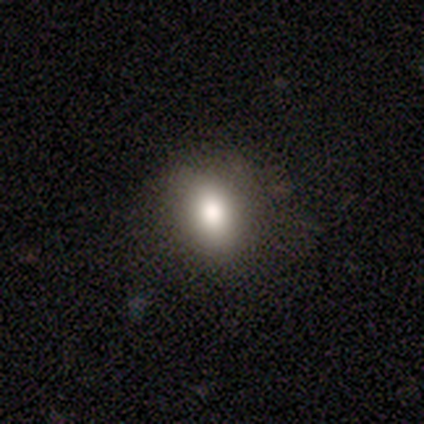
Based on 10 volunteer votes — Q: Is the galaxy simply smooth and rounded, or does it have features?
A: featured or disk — 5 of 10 (50%).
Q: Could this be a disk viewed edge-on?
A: no — 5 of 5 (100%).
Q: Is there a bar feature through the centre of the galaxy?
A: no — 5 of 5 (100%).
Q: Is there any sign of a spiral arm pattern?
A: no — 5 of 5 (100%).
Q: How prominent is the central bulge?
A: large — 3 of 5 (60%).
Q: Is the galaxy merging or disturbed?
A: none — 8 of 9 (89%).